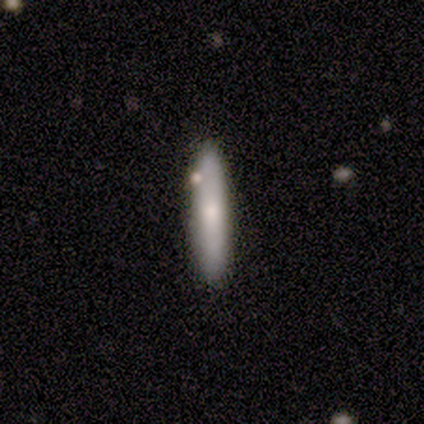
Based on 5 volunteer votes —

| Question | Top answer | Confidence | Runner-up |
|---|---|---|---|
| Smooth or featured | smooth | 80% | featured or disk (20%) |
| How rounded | cigar-shaped | 100% | — |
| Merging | none | 80% | minor disturbance (20%) |